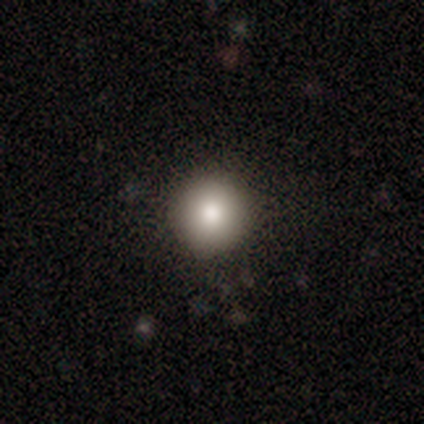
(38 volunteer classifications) smooth 82%, star or artifact 11%, featured or disk 8%. Down the decision tree: how rounded — round (97%); merging — none (94%).